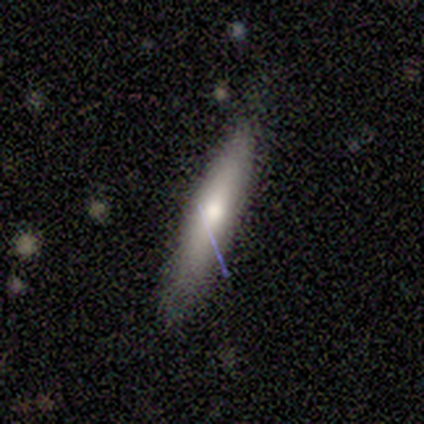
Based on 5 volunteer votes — Overall: smooth (80%). How rounded: cigar-shaped (75%). Merging: none (60%; minor disturbance 40%).